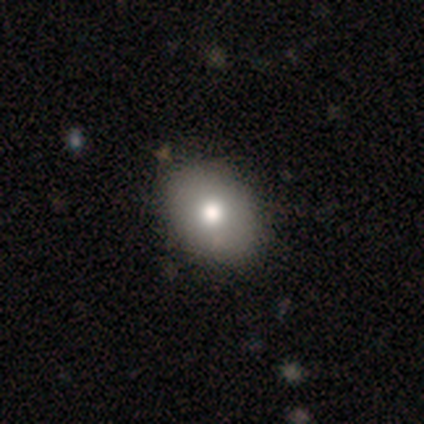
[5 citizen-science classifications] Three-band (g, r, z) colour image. It shows a smooth galaxy with no disk features (60%) that is in between round and cigar-shaped (67%). Merging: none (60%).